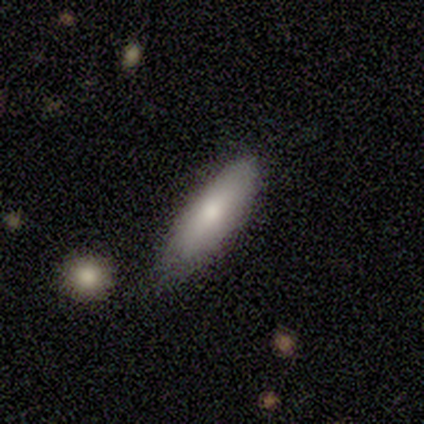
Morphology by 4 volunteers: Smooth or featured: smooth — 75% (featured or disk — 25%)
How rounded: in between — 67% (cigar-shaped — 33%)
Merging: none — 75% (minor disturbance — 25%)